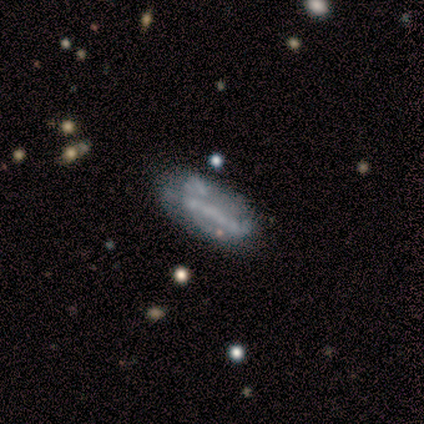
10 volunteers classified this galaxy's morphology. Smooth or featured? 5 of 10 (50%) said featured or disk. Edge-on disk? 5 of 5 (100%) said no. Bar? 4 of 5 (80%) said no. Spiral arms? 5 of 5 (100%) said no. Bulge size? 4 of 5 (80%) said none. Merging? 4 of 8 (50%) said none.